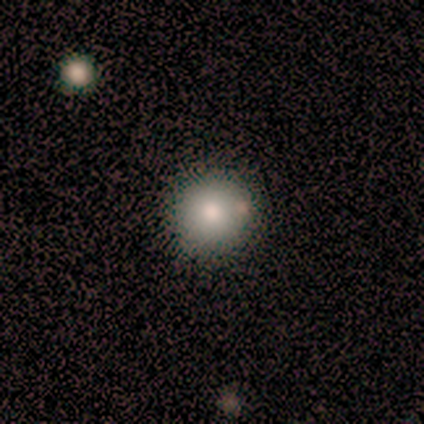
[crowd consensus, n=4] Smooth or featured: smooth — 100%
How rounded: round — 100%
Merging: none — 75% (merger — 25%)